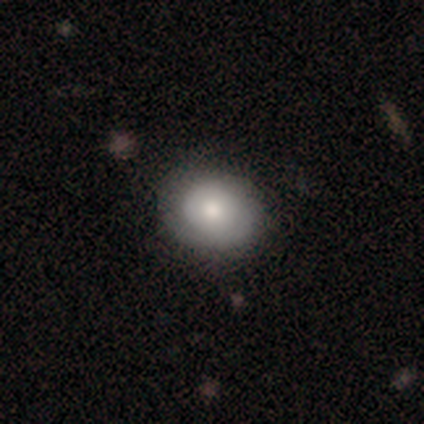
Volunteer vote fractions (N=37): Smooth or featured? smooth (78%)
How rounded? round (55%)
Merging? none (46%)